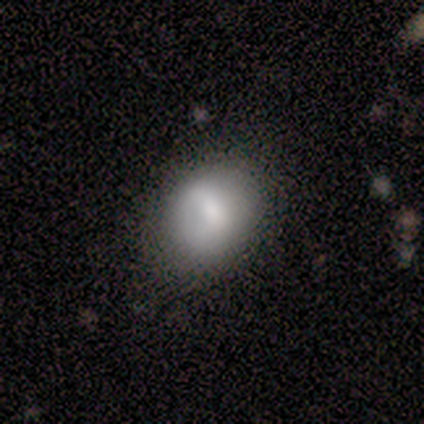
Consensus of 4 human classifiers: This is clearly a smooth galaxy (100%). How rounded: likely round (75%). Merging: possibly none (50%, tied with minor disturbance).